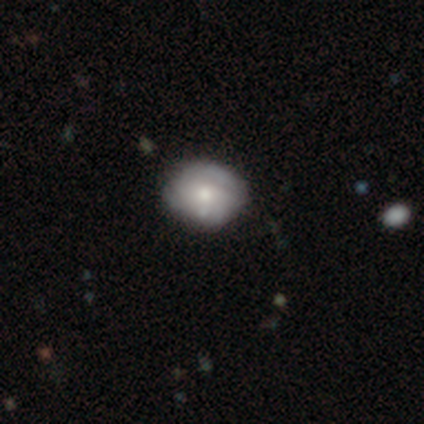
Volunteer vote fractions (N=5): smooth-or-featured: featured or disk: 60% | smooth: 20% | star or artifact: 20%
  disk-edge-on: no: 100% | yes: 0%
    bar: no: 67% | weak: 33% | strong: 0%
    has-spiral-arms: no: 67% | yes: 33%
    bulge-size: moderate: 67% | small: 33% | dominant: 0% | large: 0% | none: 0%
  merging: none: 75% | minor disturbance: 25% | major disturbance: 0% | merger: 0%